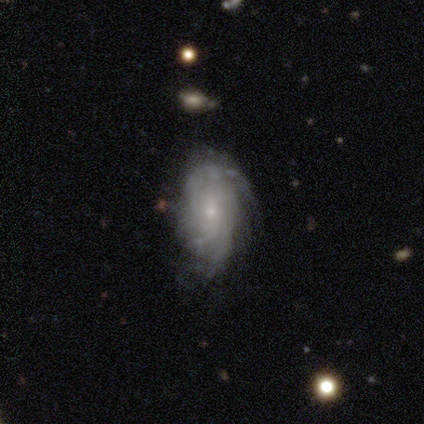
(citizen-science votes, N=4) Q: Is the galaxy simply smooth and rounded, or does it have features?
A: smooth — 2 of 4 (50%, tied with featured or disk).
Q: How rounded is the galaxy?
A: in between — 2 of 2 (100%).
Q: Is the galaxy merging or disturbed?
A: none — 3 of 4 (75%).